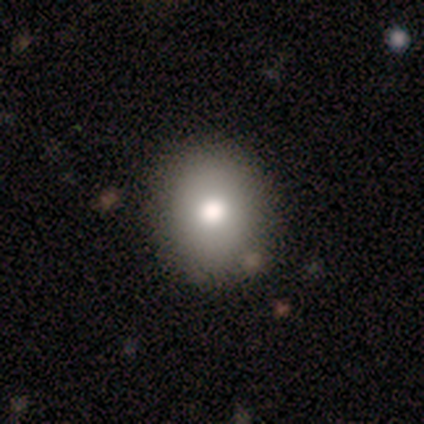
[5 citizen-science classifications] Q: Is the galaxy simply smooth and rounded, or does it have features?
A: smooth — 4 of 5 (80%).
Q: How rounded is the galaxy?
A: round — 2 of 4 (50%, tied with in between).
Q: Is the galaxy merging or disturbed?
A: none — 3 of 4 (75%).